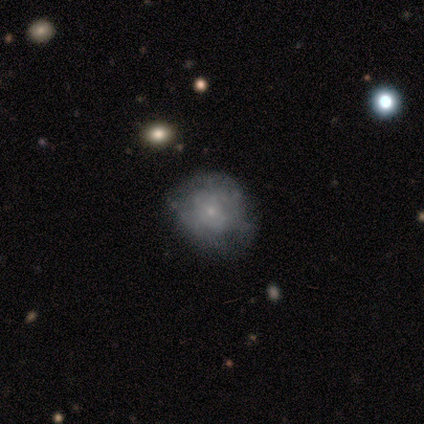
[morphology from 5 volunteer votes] A smooth galaxy with no disk features (40%, tied with featured or disk) that is round (50%, tied with in between).

Vote fractions:
- Smooth or featured? smooth: 40% (tied) / featured or disk: 40% (tied) / star or artifact: 20%
- How rounded? round: 50% (tied) / in between: 50% (tied) / cigar-shaped: 0%
- Merging? major disturbance: 50% / none: 25% / minor disturbance: 25% / merger: 0%